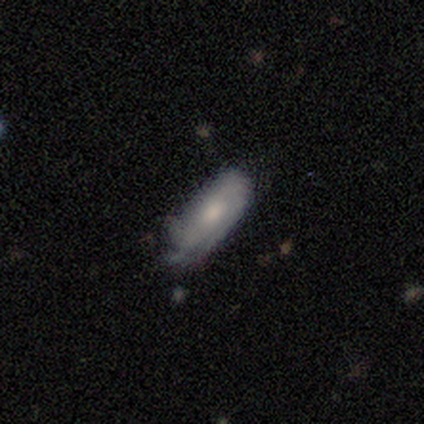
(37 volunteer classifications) This appears to be a featured or disk galaxy (59%) with no bar (69%), tight (69%) spiral arms (81%) and a moderate central bulge (50%). Merging: none (63%).